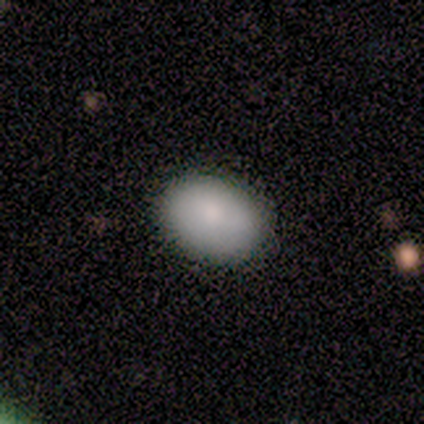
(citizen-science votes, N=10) This is clearly a smooth galaxy (100%). How rounded: likely in between (70%). Merging: clearly none (90%).